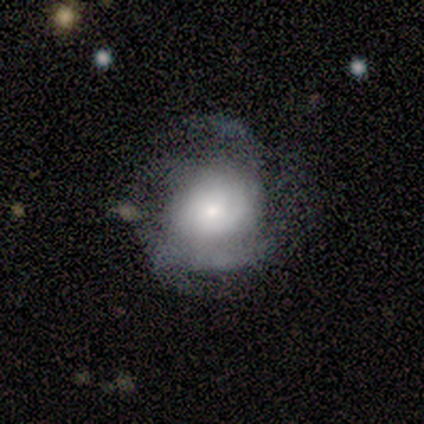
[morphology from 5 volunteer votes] A featured or disk galaxy (40%, tied with star or artifact) with no bar (100%), 4 (50%, tied with can't tell) tight (50%, tied with loose) spiral arms (100%) and a small central bulge (50%, tied with none). Merging: none (100%).